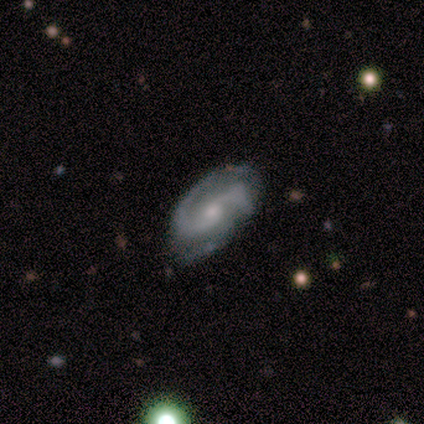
Volunteers were most divided on "spiral winding" (2-way tie): medium: 50%, loose: 50%, tight: 0%. More confident: edge-on disk — no (100%); spiral arms — yes (100%); spiral arm count — 2 (100%); merging — none (100%); smooth or featured — featured or disk (80%); bar — no (75%); bulge size — small (75%).